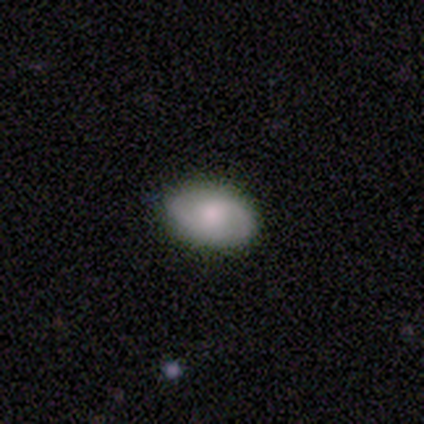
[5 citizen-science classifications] Smooth or featured: smooth — 60% (featured or disk — 40%)
How rounded: in between — 100%
Merging: none — 60% (minor disturbance — 40%)